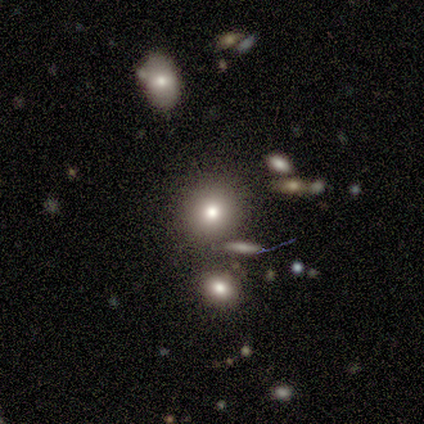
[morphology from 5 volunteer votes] smooth-or-featured: smooth: 60% | star or artifact: 40% | featured or disk: 0%
  how-rounded: round: 100% | in between: 0% | cigar-shaped: 0%
  merging: none: 100% | minor disturbance: 0% | major disturbance: 0% | merger: 0%